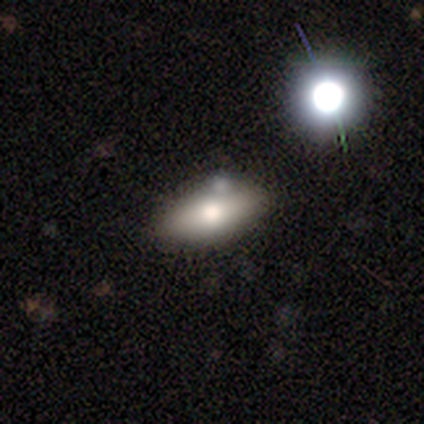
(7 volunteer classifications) Smooth or featured? 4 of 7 (57%) said smooth. How rounded? 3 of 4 (75%) said in between. Merging? 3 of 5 (60%) said none.